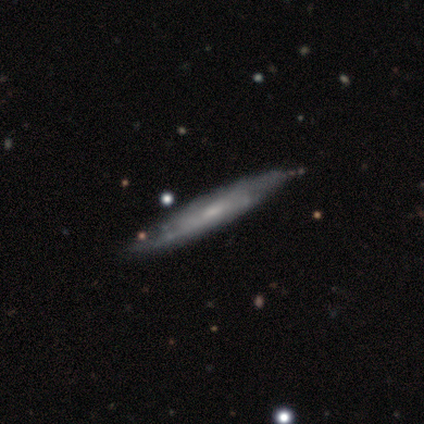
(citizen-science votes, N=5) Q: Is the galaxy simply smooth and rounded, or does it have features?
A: featured or disk — 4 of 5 (80%).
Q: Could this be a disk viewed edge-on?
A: yes — 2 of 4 (50%, tied with no).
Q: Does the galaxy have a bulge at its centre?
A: none — 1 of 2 (50%, tied with rounded).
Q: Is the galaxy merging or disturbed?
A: none — 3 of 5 (60%).